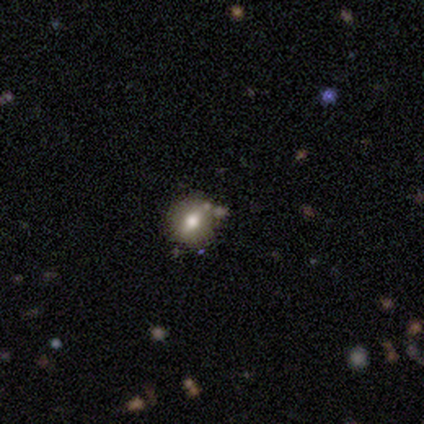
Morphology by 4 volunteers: smooth_or_featured: smooth (p=0.50) [alt: featured or disk p=0.25]
how_rounded: round (p=1.00)
merging: none (p=1.00)